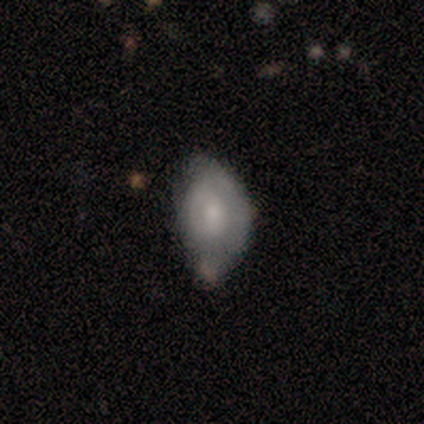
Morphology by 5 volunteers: type=star or artifact (60%).